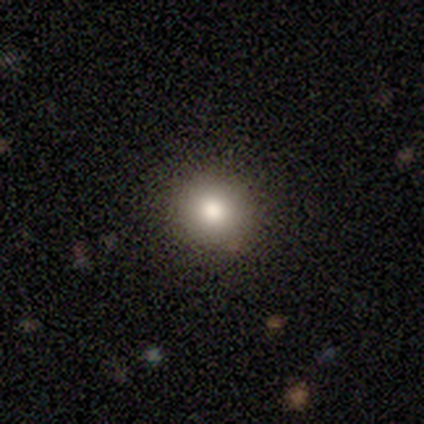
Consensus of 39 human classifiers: Overall: smooth (77%). How rounded: round (90%). Merging: none (85%).